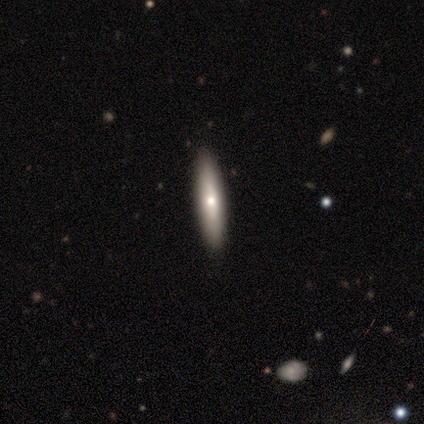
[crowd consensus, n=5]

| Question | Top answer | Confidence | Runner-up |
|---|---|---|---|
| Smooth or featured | featured or disk | 60% | smooth (40%) |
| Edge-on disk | yes | 100% | — |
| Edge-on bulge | rounded | 100% | — |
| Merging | none | 100% | — |